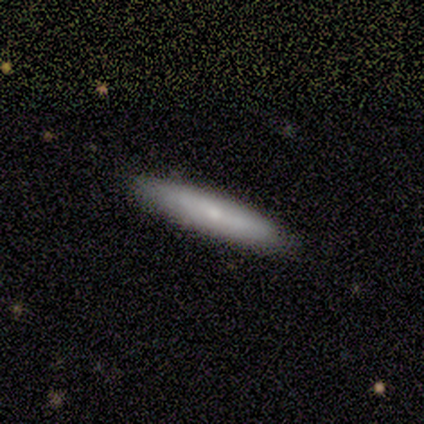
This is possibly a smooth galaxy (53%). How rounded: clearly cigar-shaped (100%). Merging: clearly none (93%).